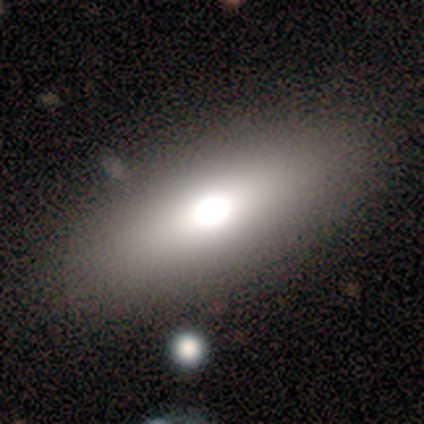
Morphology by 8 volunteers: type=smooth (88%); roundness=in between (71%); merging=none (100%).